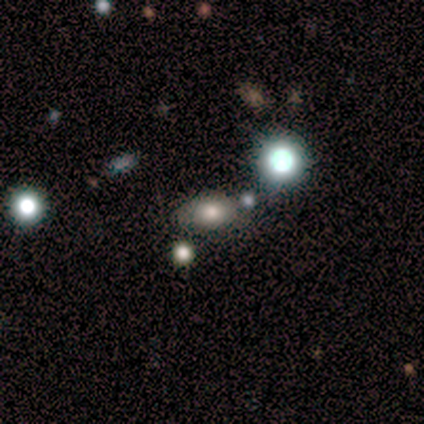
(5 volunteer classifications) Overall: smooth (60%; star or artifact 40%). How rounded: in between (100%). Merging: none (67%; minor disturbance 33%).